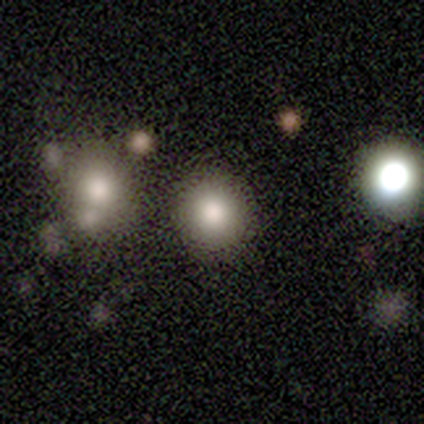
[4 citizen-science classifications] Smooth or featured? smooth (100%)
How rounded? round (75%)
Merging? none (75%)